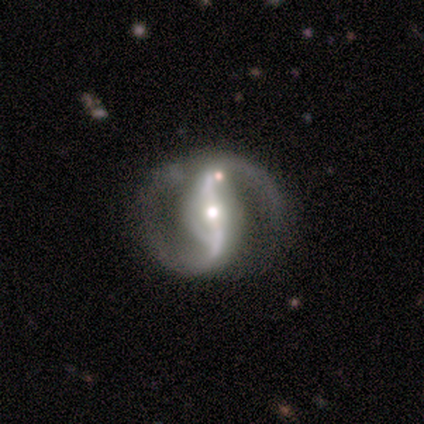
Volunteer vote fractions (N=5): Smooth or featured?
  - featured or disk: 100% *
  - smooth: 0%
  - star or artifact: 0%
Edge-on disk?
  - no: 100% *
  - yes: 0%
Bar?
  - weak: 60% *
  - strong: 40%
  - no: 0%
Spiral arms?
  - yes: 100% *
  - no: 0%
Spiral winding?
  - loose: 80% *
  - medium: 20%
  - tight: 0%
Spiral arm count?
  - 2: 100% *
  - 1: 0%
  - 3: 0%
  - 4: 0%
  - more than 4: 0%
  - can't tell: 0%
Bulge size?
  - moderate: 40% * (tied)
  - small: 40% * (tied)
  - large: 20%
  - dominant: 0%
  - none: 0%
Merging?
  - none: 100% *
  - minor disturbance: 0%
  - major disturbance: 0%
  - merger: 0%